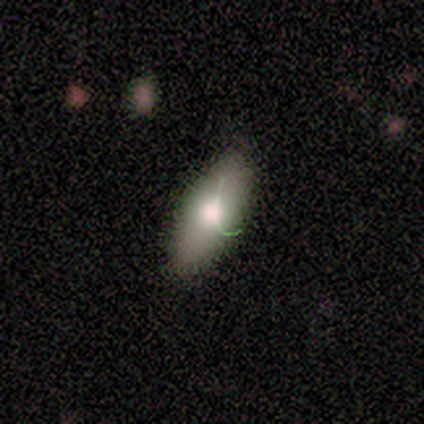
Smooth or featured? 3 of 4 (75%) said smooth. How rounded? 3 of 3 (100%) said in between. Merging? 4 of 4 (100%) said none.